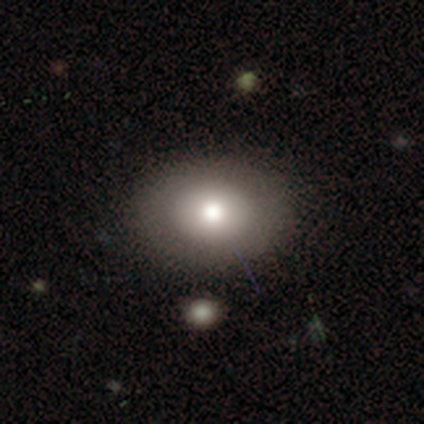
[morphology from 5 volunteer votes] A smooth galaxy with no disk features (60%) that is in between round and cigar-shaped (100%).

Vote fractions:
- Smooth or featured? smooth: 60% / star or artifact: 40% / featured or disk: 0%
- How rounded? in between: 100% / round: 0% / cigar-shaped: 0%
- Merging? none: 100% / minor disturbance: 0% / major disturbance: 0% / merger: 0%